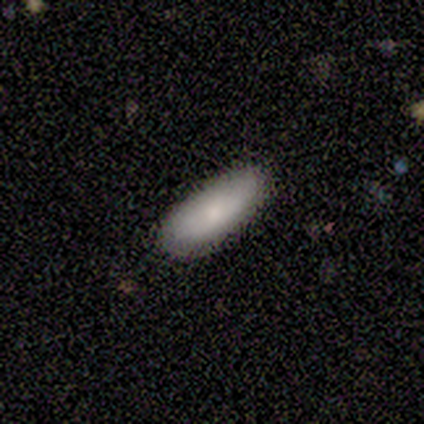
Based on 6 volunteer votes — Smooth or featured? smooth (83%)
How rounded? cigar-shaped (60%)
Merging? none (83%)